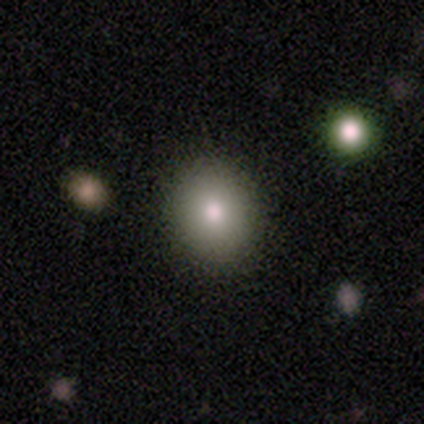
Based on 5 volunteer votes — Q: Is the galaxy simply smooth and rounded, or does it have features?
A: smooth — 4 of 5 (80%).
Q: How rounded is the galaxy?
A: round — 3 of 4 (75%).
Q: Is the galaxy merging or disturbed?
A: none — 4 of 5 (80%).